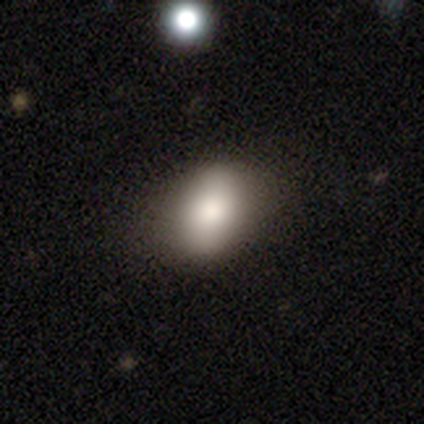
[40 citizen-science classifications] This appears to be a smooth galaxy with no disk features (75%) that is in between round and cigar-shaped (80%). Merging: none (78%).